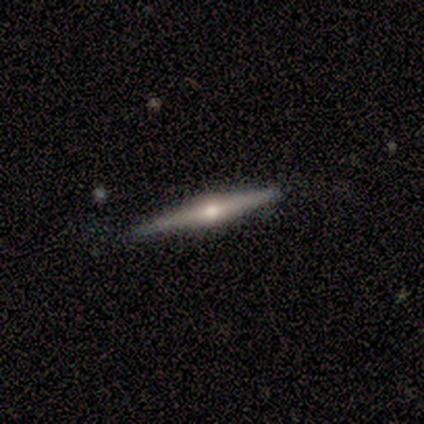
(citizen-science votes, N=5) A featured or disk galaxy (100%) viewed edge-on (100%) with a rounded central bulge (100%).

Vote fractions:
- Smooth or featured? featured or disk: 100% / smooth: 0% / star or artifact: 0%
- Edge-on disk? yes: 100% / no: 0%
- Edge-on bulge? rounded: 100% / boxy: 0% / none: 0%
- Merging? none: 80% / major disturbance: 20% / minor disturbance: 0% / merger: 0%